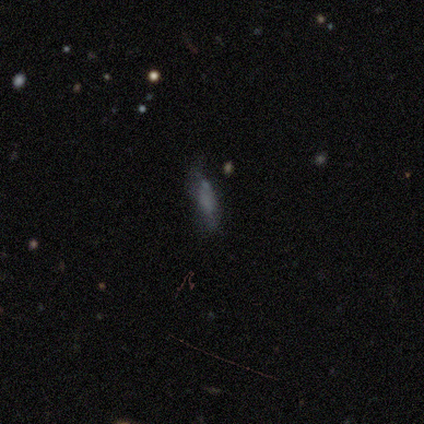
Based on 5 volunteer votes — This is clearly a smooth galaxy (80%). How rounded: likely cigar-shaped (75%). Merging: possibly major disturbance (50%).